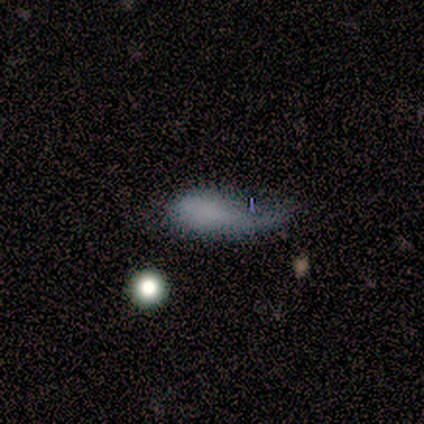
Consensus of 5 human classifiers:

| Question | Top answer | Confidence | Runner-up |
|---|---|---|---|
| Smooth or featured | smooth | 80% | star or artifact (20%) |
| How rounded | in between | 75% | cigar-shaped (25%) |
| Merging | minor disturbance | 75% | major disturbance (25%) |